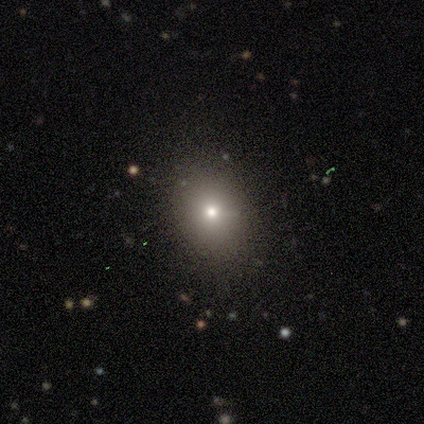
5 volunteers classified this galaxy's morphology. Smooth or featured? smooth (80%)
How rounded? round (50%, tied with in between)
Merging? none (100%)